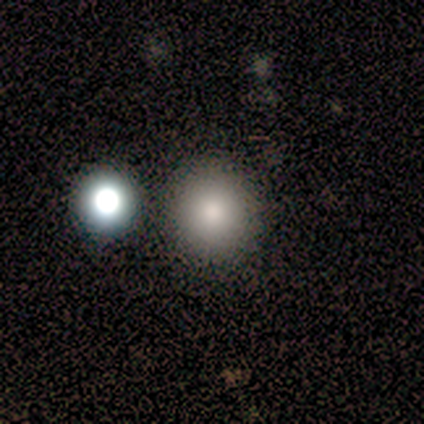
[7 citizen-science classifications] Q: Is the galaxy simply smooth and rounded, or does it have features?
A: smooth — 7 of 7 (100%).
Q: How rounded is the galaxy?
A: round — 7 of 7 (100%).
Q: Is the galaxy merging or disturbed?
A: none — 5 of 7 (71%).